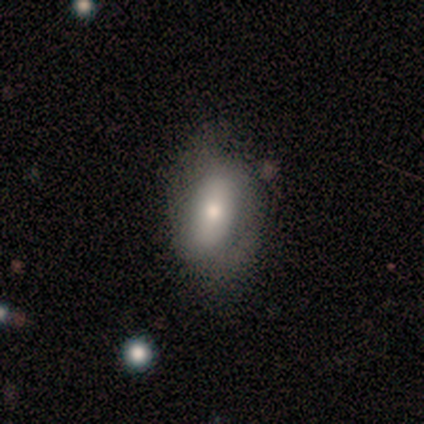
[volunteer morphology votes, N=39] This is possibly a smooth galaxy (59%). How rounded: clearly in between (87%). Merging: possibly none (49%, tied with minor disturbance).